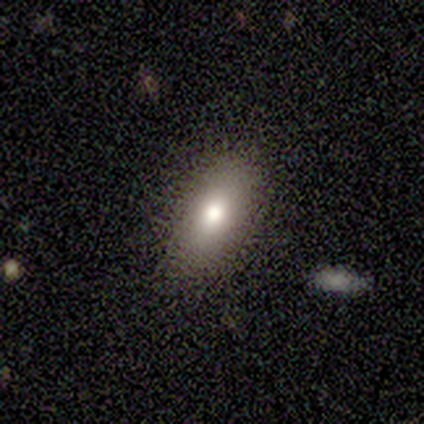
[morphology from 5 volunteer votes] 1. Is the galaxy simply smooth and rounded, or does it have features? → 100% smooth, 0% featured or disk, 0% star or artifact.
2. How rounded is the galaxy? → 80% in between, 20% round, 0% cigar-shaped.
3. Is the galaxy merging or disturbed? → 80% none, 20% minor disturbance, 0% major disturbance, 0% merger.